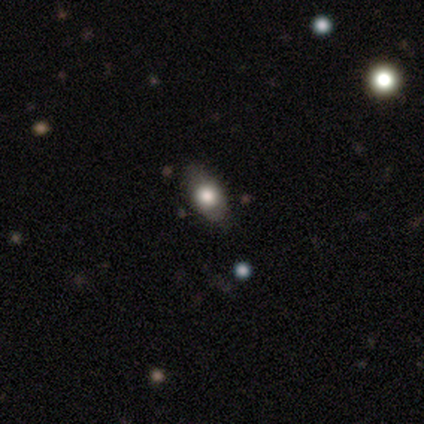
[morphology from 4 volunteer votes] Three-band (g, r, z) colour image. It shows a smooth galaxy with no disk features (75%) that is in between round and cigar-shaped (100%). Merging: none (100%).